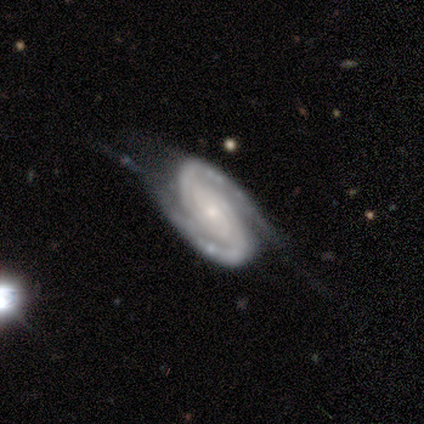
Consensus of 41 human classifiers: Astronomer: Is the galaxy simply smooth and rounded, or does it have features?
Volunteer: featured or disk — 88%.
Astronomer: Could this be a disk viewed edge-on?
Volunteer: no — 97%.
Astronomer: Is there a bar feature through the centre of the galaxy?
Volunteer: no — 66%.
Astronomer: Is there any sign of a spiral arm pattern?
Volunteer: yes — 100%.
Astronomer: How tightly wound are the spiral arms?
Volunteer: tight — 49% (runner-up: medium, 43%).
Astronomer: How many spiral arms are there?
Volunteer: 2 — 91%.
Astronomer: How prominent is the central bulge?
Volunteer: small — 71%.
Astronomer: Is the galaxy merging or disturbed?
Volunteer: none — 54% (runner-up: minor disturbance, 35%).